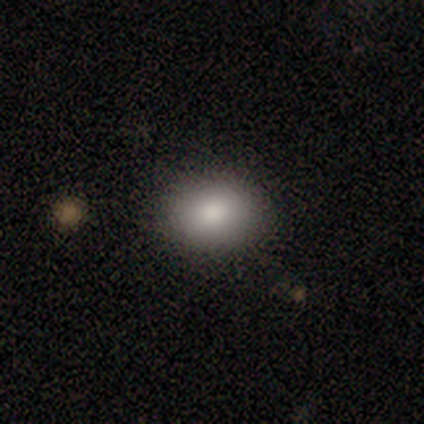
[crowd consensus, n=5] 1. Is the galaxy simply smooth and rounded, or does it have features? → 100% smooth, 0% featured or disk, 0% star or artifact.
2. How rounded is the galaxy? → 100% in between, 0% round, 0% cigar-shaped.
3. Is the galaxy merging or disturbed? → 80% none, 20% minor disturbance, 0% major disturbance, 0% merger.